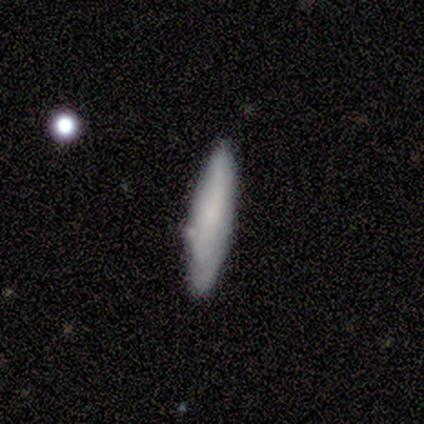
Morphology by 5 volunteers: Smooth or featured?
  - smooth: 60% *
  - featured or disk: 40%
  - star or artifact: 0%
How rounded?
  - cigar-shaped: 100% *
  - round: 0%
  - in between: 0%
Merging?
  - none: 80% *
  - minor disturbance: 20%
  - major disturbance: 0%
  - merger: 0%